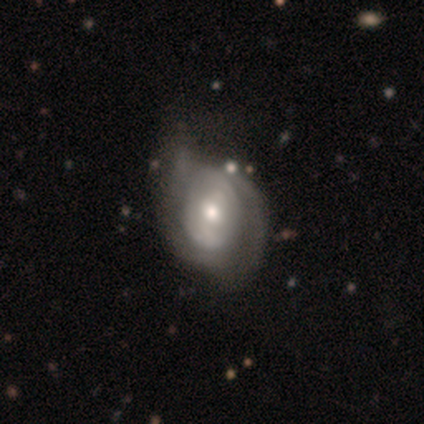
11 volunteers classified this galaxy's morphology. Overall: featured or disk (100%). Edge-on disk: no (100%). Bar: weak (55%; no 45%). Spiral arms: yes (82%). Spiral arm count: can't tell (44%; 2 33%). Spiral winding: medium (56%; tight 33%). Bulge size: moderate (82%). Merging: minor disturbance (55%; none 27%).